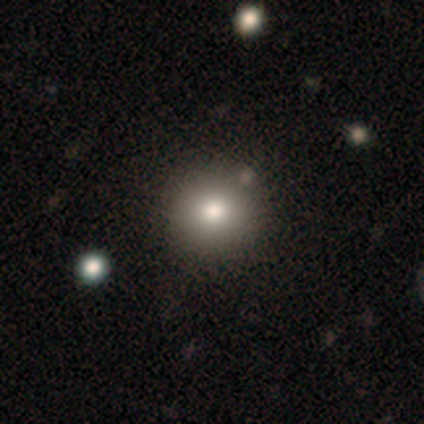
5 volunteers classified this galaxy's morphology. A smooth galaxy with no disk features (100%) that is round (60%). Merging: none (100%).